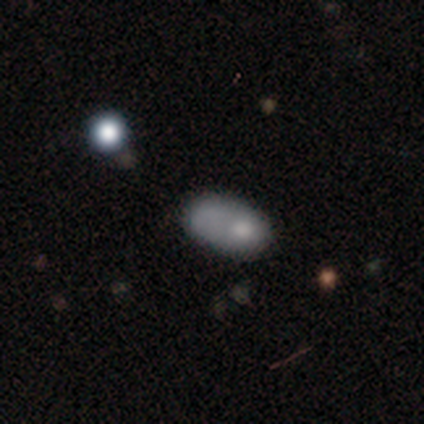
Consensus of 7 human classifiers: Smooth or featured? 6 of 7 (86%) said smooth. How rounded? 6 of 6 (100%) said in between. Merging? 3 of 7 (43%) said none.